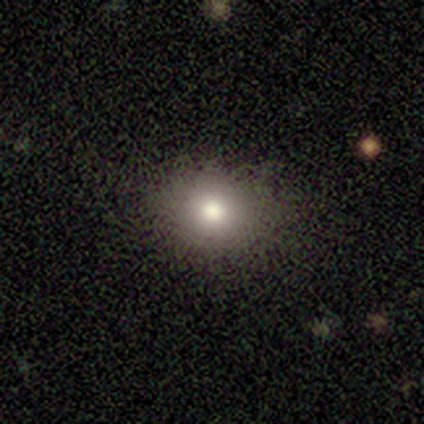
Smooth or featured? smooth (76%)
How rounded? round (62%)
Merging? none (75%)